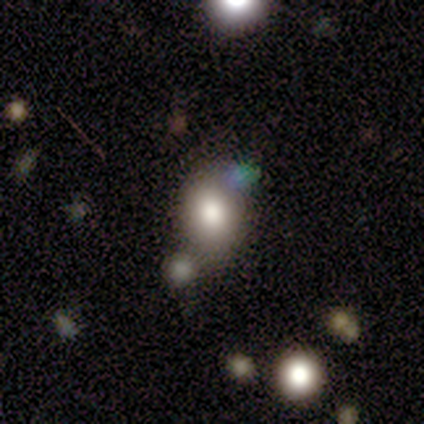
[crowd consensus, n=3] This is clearly a smooth galaxy (100%). How rounded: clearly in between (100%). Merging: likely none (67%).